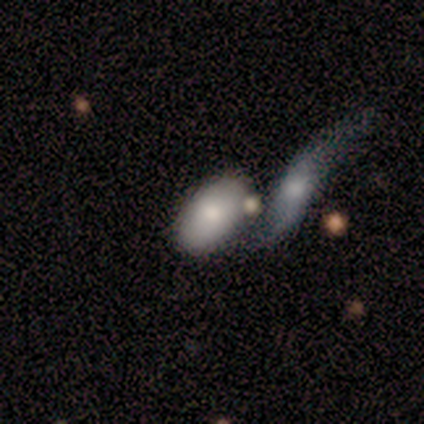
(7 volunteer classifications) A smooth galaxy with no disk features (86%) that is in between round and cigar-shaped (100%). Merging: merger (57%).